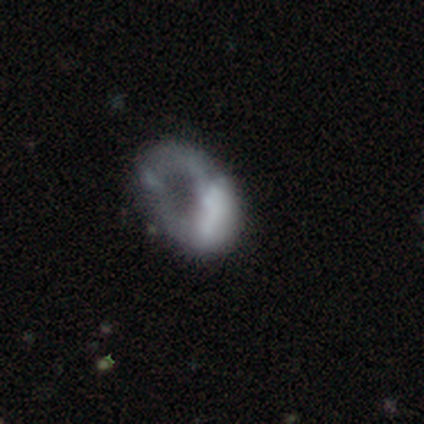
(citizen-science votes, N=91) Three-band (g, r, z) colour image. It shows a featured or disk galaxy (65%) with no bar (81%), no spiral arms (84%) and no central bulge (65%). Merging: major disturbance (69%).